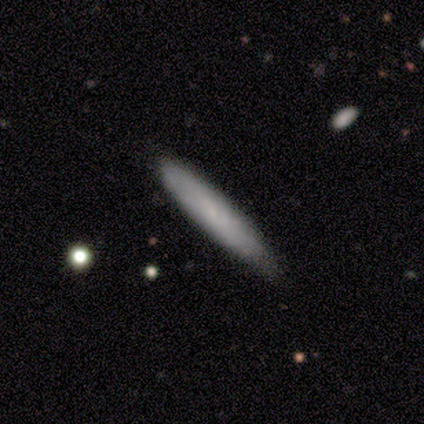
smooth 60%, featured or disk 20%, star or artifact 20%. Down the decision tree: how rounded — cigar-shaped (100%); merging — none (50%, tied with minor disturbance).